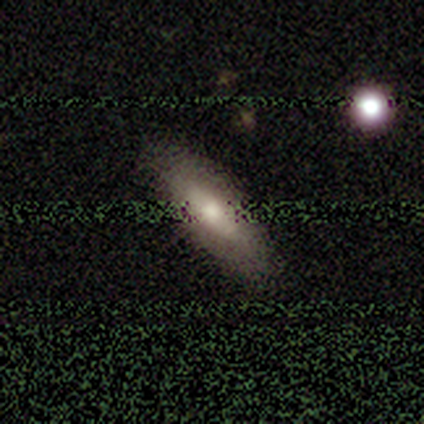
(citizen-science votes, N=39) Smooth or featured: smooth — 62% (featured or disk — 26%)
How rounded: in between — 67% (cigar-shaped — 29%)
Merging: none — 85% (minor disturbance — 9%)